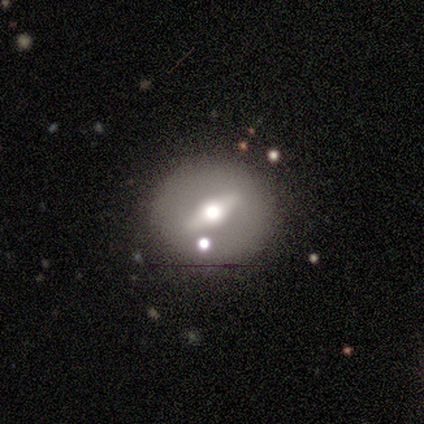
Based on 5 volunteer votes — Volunteers were most divided on "edge-on disk": no: 60%, yes: 40%. More confident: smooth or featured — featured or disk (100%); spiral arms — no (100%); bulge size — moderate (100%); merging — none (100%); bar — strong (67%).